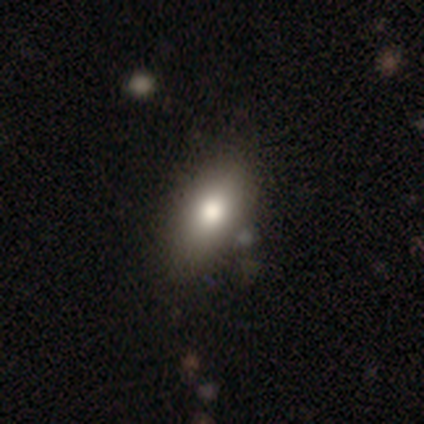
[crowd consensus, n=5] Q: Smooth or featured?
A: smooth (80%); runner-up: featured or disk (20%)
Q: How rounded?
A: in between (100%)
Q: Merging?
A: none (60%); runner-up: minor disturbance (40%)